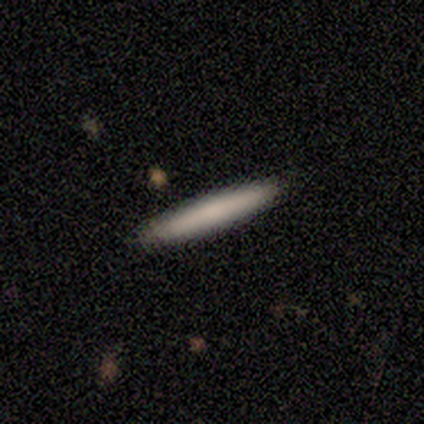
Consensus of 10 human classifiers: smooth_or_featured: smooth (p=1.00)
how_rounded: cigar-shaped (p=1.00)
merging: none (p=1.00)